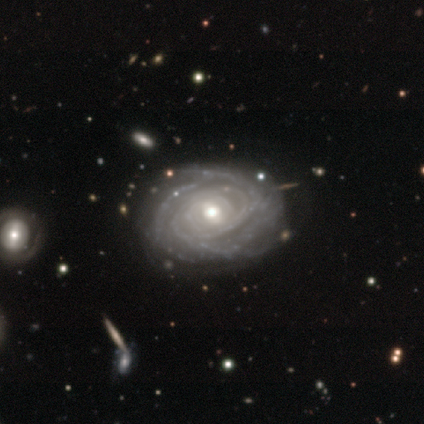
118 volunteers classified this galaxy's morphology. Smooth or featured?
  - featured or disk: 97% *
  - smooth: 2%
  - star or artifact: 2%
Edge-on disk?
  - no: 98% *
  - yes: 2%
Bar?
  - weak: 46% *
  - no: 43%
  - strong: 11%
Spiral arms?
  - yes: 96% *
  - no: 4%
Spiral winding?
  - tight: 81% *
  - medium: 13%
  - loose: 6%
Spiral arm count?
  - can't tell: 34% *
  - 4: 24%
  - 3: 19%
  - more than 4: 19%
  - 2: 5%
  - 1: 0%
Bulge size?
  - moderate: 76% *
  - small: 17%
  - dominant: 3%
  - large: 3%
  - none: 2%
Merging?
  - none: 51% *
  - minor disturbance: 12%
  - major disturbance: 4%
  - merger: 2%